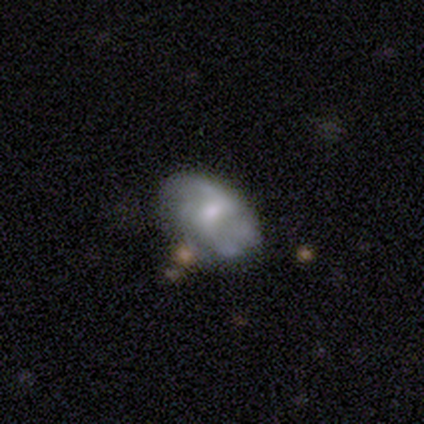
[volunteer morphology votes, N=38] This appears to be a featured or disk galaxy (68%) with no bar (54%), 2 (47%) medium (47%) spiral arms (73%) and a moderate central bulge (50%). Merging: none (60%).